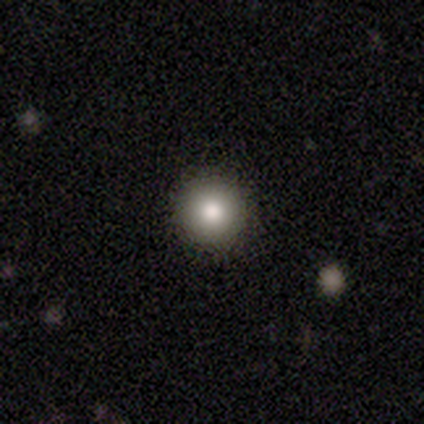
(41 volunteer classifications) Smooth or featured? smooth (85%)
How rounded? round (97%)
Merging? none (100%)